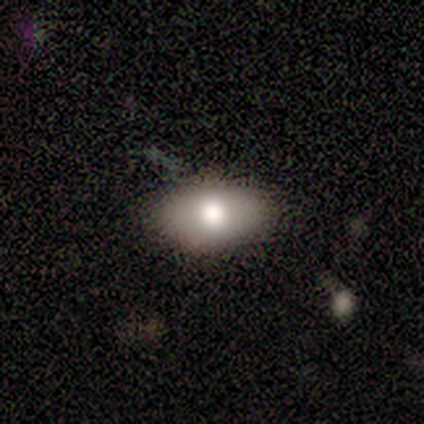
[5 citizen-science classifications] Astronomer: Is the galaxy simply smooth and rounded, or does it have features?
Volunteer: smooth — 60% (runner-up: featured or disk, 40%).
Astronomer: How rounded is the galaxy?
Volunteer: in between — 100%.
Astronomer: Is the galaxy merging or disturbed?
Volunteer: none — 100%.